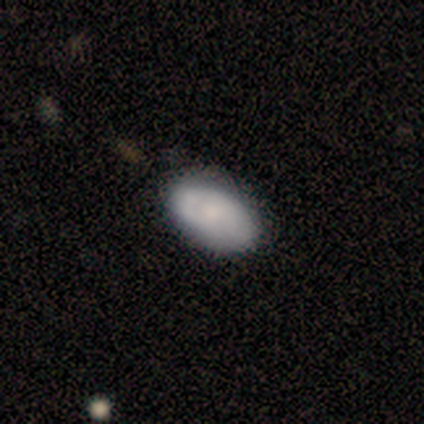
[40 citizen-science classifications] Smooth or featured?
  - smooth: 55% *
  - featured or disk: 42%
  - star or artifact: 2%
How rounded?
  - in between: 91% *
  - round: 9%
  - cigar-shaped: 0%
Merging?
  - none: 69% *
  - minor disturbance: 10%
  - major disturbance: 0%
  - merger: 0%